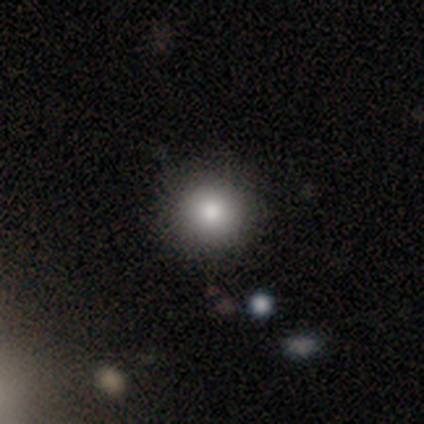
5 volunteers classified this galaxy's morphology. A smooth galaxy with no disk features (100%) that is round (80%).

Vote fractions:
- Smooth or featured? smooth: 100% / featured or disk: 0% / star or artifact: 0%
- How rounded? round: 80% / cigar-shaped: 20% / in between: 0%
- Merging? none: 100% / minor disturbance: 0% / major disturbance: 0% / merger: 0%